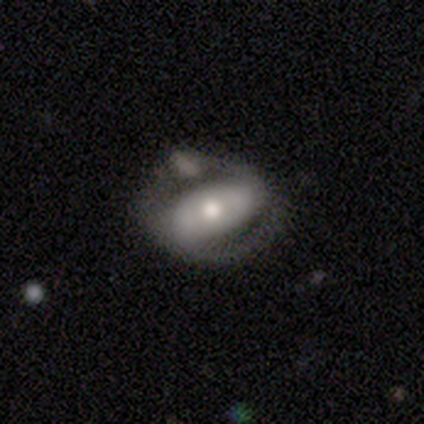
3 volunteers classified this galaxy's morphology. Q: Smooth or featured?
A: featured or disk (100%)
Q: Edge-on disk?
A: no (67%); runner-up: yes (33%)
Q: Bar?
A: strong (50%); tied with: weak (50%)
Q: Spiral arms?
A: yes (100%)
Q: Spiral winding?
A: tight (100%)
Q: Spiral arm count?
A: 2 (50%); tied with: can't tell (50%)
Q: Bulge size?
A: moderate (100%)
Q: Merging?
A: none (33%); tied with: minor disturbance (33%); major disturbance (33%)